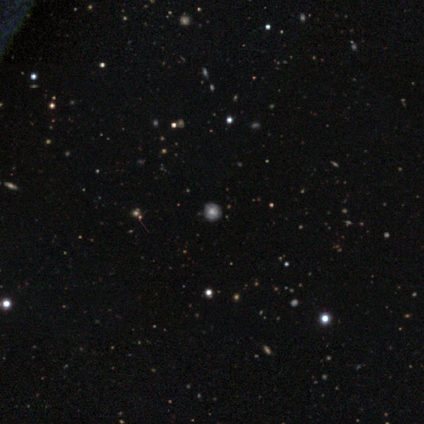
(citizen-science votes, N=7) Morphology: type=smooth (71%); roundness=round (100%); merging=none (80%).